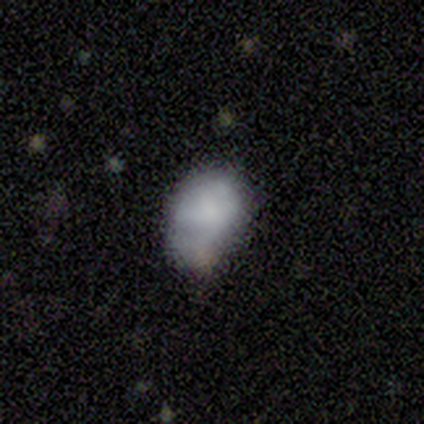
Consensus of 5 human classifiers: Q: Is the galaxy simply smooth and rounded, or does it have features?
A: smooth — 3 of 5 (60%).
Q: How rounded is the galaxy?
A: in between — 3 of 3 (100%).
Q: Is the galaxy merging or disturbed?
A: none — 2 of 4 (50%, tied with minor disturbance).